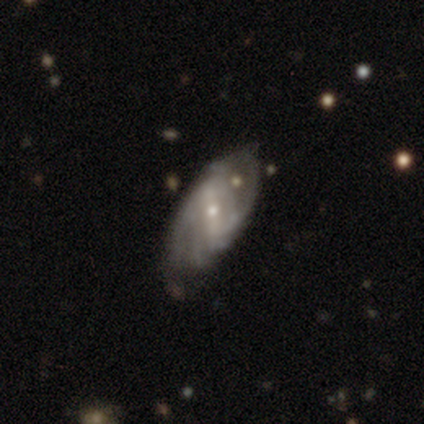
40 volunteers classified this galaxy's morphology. smooth-or-featured: featured or disk: 78% | smooth: 18% | star or artifact: 5%
  disk-edge-on: no: 97% | yes: 3%
    bar: strong: 43% | weak: 33% | no: 23%
    has-spiral-arms: yes: 80% | no: 20%
      spiral-winding: tight: 38% (tied) | medium: 38% (tied) | loose: 25%
      spiral-arm-count: 2: 42% | can't tell: 29% | 3: 21% | 4: 8% | 1: 0% | more than 4: 0%
    bulge-size: small: 60% | moderate: 37% | none: 3% | dominant: 0% | large: 0%
  merging: none: 53% | minor disturbance: 37% | major disturbance: 8% | merger: 3%